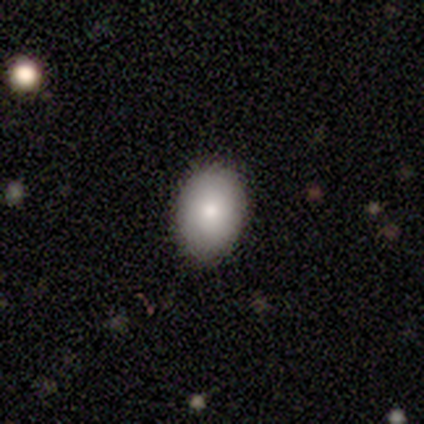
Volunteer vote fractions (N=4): Overall: smooth (100%). How rounded: in between (100%). Merging: none (75%).